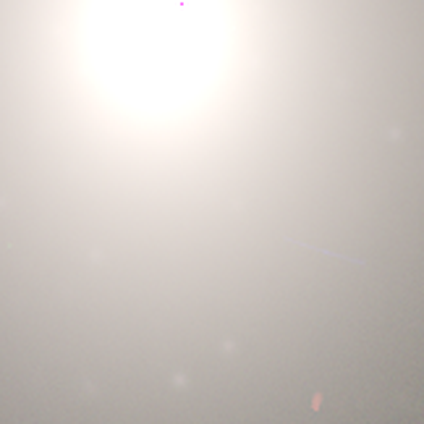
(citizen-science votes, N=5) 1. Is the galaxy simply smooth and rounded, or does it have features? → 60% star or artifact, 40% smooth, 0% featured or disk.